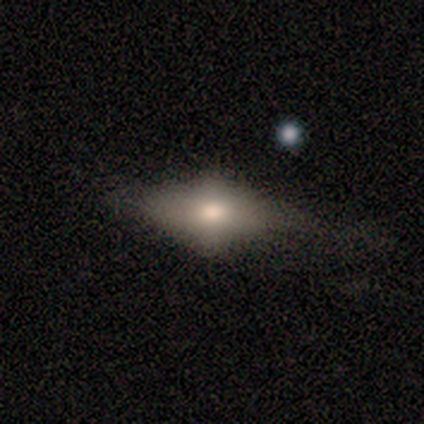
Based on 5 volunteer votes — Q: Smooth or featured?
A: smooth (60%); runner-up: featured or disk (40%)
Q: How rounded?
A: in between (100%)
Q: Merging?
A: none (80%); runner-up: minor disturbance (20%)